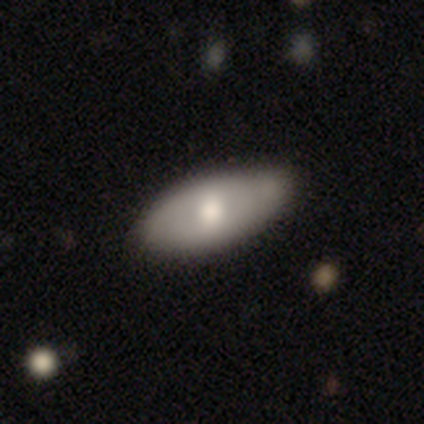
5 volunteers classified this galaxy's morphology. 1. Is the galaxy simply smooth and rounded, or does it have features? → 80% featured or disk, 20% smooth, 0% star or artifact.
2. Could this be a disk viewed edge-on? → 100% no, 0% yes.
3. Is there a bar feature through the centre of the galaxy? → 50% weak, 25% strong, 25% no.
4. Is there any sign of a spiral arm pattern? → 50% yes (tied), 50% no (tied).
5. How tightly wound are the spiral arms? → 100% tight, 0% medium, 0% loose.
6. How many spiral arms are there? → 100% 2, 0% 1, 0% 3, 0% 4, 0% more than 4, 0% can't tell.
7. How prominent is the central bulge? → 75% moderate, 25% large, 0% dominant, 0% small, 0% none.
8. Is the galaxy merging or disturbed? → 40% none (tied), 40% minor disturbance (tied), 20% major disturbance, 0% merger.